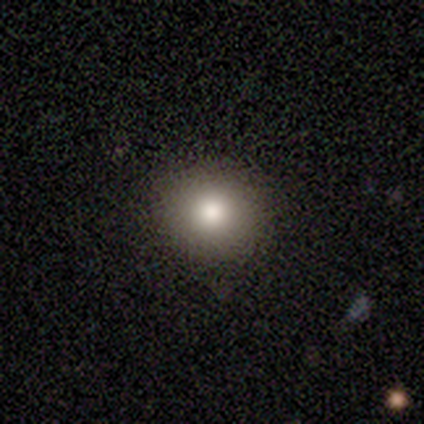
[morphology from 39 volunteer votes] Smooth or featured: smooth — 87% (featured or disk — 8%)
How rounded: round — 88% (in between — 12%)
Merging: none — 70% (minor disturbance — 3%)